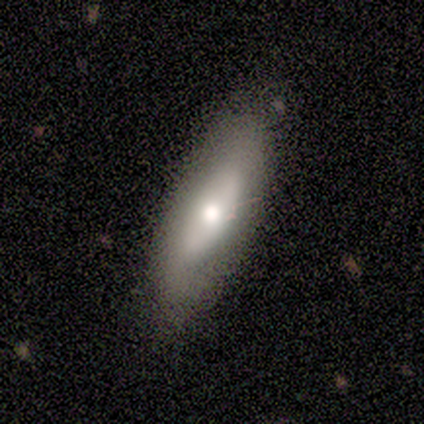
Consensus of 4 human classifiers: Smooth or featured?
  - smooth: 50% *
  - featured or disk: 25%
  - star or artifact: 25%
How rounded?
  - cigar-shaped: 100% *
  - round: 0%
  - in between: 0%
Merging?
  - none: 67% *
  - minor disturbance: 33%
  - major disturbance: 0%
  - merger: 0%